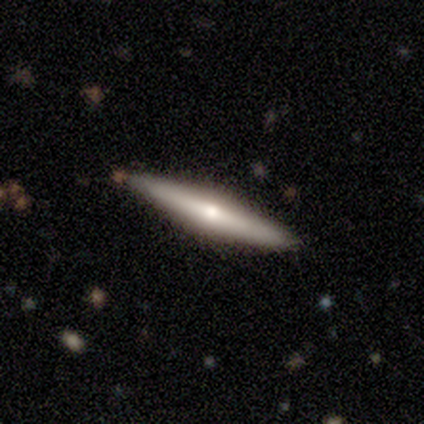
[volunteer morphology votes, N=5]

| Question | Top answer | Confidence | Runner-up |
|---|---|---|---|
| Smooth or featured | smooth | 40% | tied: featured or disk (40%) |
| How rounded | cigar-shaped | 100% | — |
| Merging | none | 75% | minor disturbance (25%) |